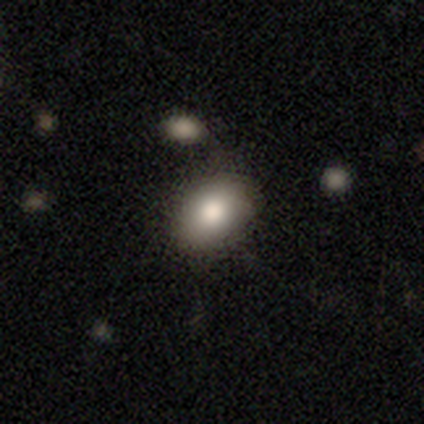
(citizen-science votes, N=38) Overall: smooth (92%). How rounded: in between (69%). Merging: none (75%).